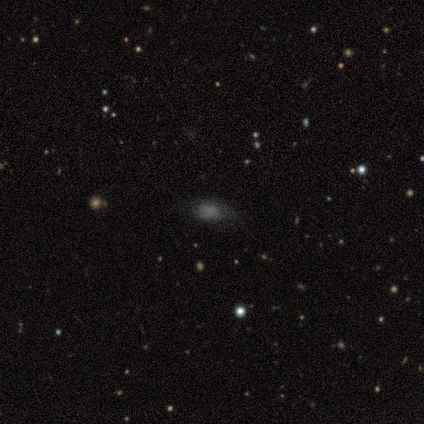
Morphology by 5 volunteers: Overall: smooth (80%). How rounded: in between (100%). Merging: none (75%).